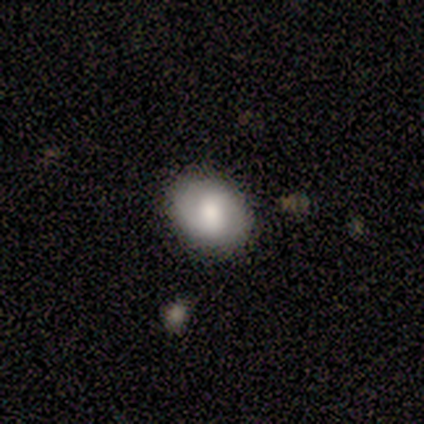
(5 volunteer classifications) smooth-or-featured: smooth: 80% | star or artifact: 20% | featured or disk: 0%
  how-rounded: in between: 100% | round: 0% | cigar-shaped: 0%
  merging: none: 75% | minor disturbance: 25% | major disturbance: 0% | merger: 0%